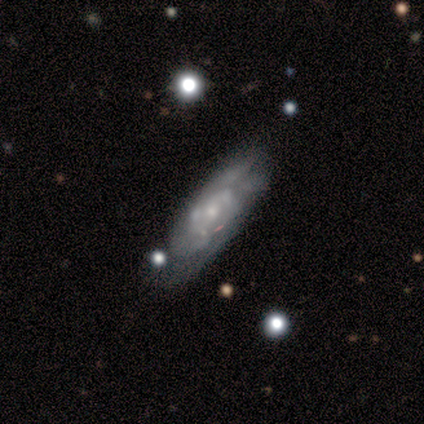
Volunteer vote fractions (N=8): A featured or disk galaxy (88%) with no bar (67%), 2 (60%) medium (60%) spiral arms (83%) and a small central bulge (67%). Merging: none (50%).